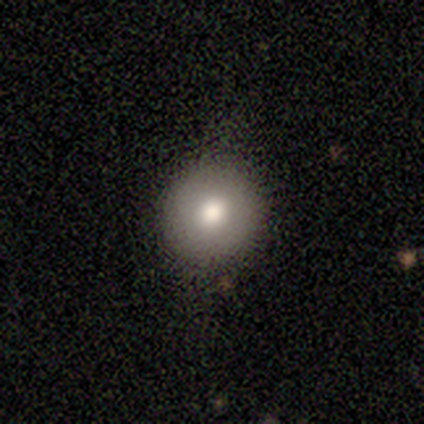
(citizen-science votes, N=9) Overall: smooth (89%). How rounded: round (88%). Merging: none (75%).